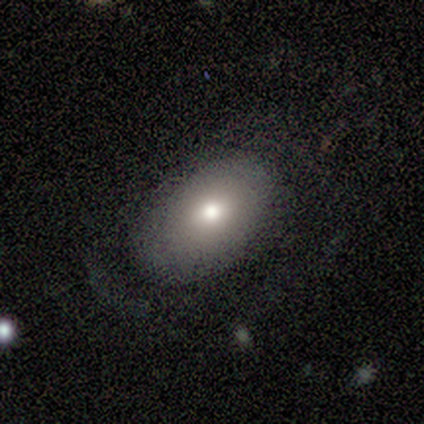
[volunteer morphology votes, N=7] type=smooth (71%); roundness=in between (100%); merging=none (43%, tied with minor disturbance).